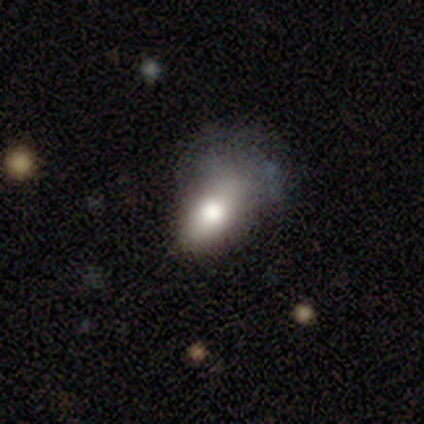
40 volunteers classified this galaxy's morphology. Smooth or featured?
  - smooth: 70% *
  - featured or disk: 20%
  - star or artifact: 10%
How rounded?
  - in between: 86% *
  - round: 11%
  - cigar-shaped: 4%
Merging?
  - none: 39% *
  - major disturbance: 33%
  - minor disturbance: 25%
  - merger: 3%